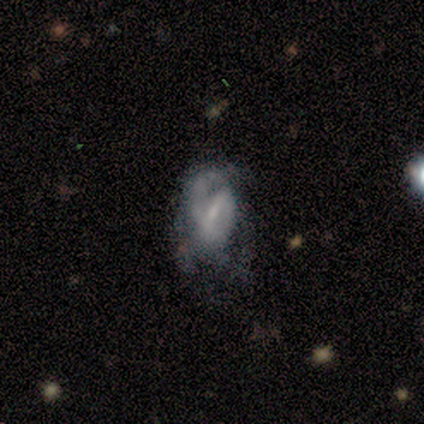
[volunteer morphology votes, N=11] This appears to be a featured or disk galaxy (73%) with a weak bar (62%), 1 (33%, tied with can't tell) medium (67%) spiral arms (75%) and a small central bulge (88%). Merging: minor disturbance (45%).